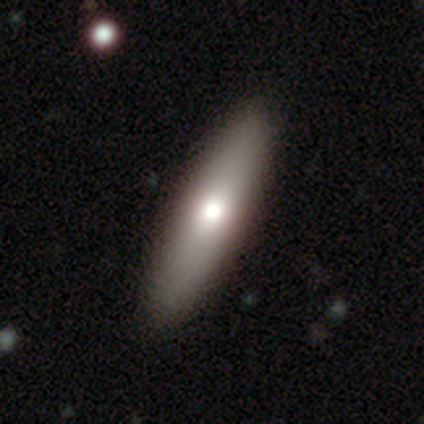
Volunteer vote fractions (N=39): A smooth galaxy with no disk features (67%) that is cigar-shaped (62%). Merging: none (76%).